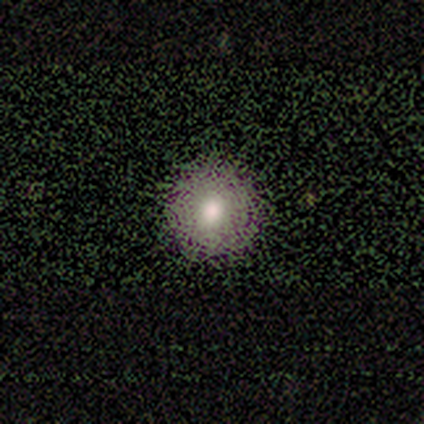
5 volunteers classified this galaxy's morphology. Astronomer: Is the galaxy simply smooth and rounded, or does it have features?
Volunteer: smooth — 60%.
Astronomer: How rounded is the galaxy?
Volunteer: round — 100%.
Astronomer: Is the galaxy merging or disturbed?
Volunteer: none — 100%.